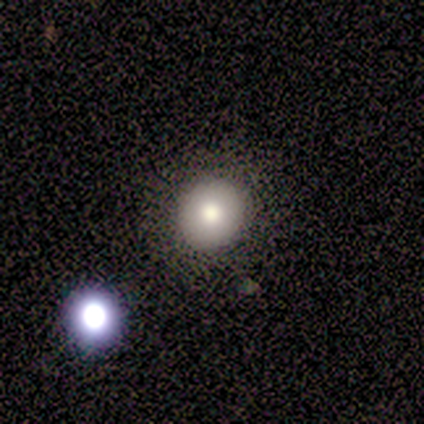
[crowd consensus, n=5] This is clearly a smooth galaxy (80%). How rounded: clearly round (100%). Merging: clearly none (100%).